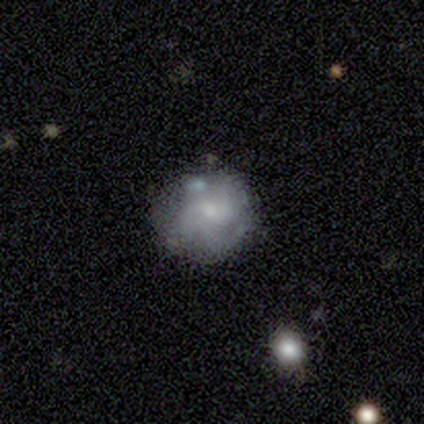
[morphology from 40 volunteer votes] smooth-or-featured: featured or disk: 78% | smooth: 20% | star or artifact: 2%
  disk-edge-on: no: 97% | yes: 3%
    bar: no: 50% | weak: 47% | strong: 3%
    has-spiral-arms: yes: 90% | no: 10%
      spiral-winding: medium: 56% | tight: 37% | loose: 7%
      spiral-arm-count: 3: 44% | can't tell: 30% | 2: 11% | 1: 7% | 4: 7% | more than 4: 0%
    bulge-size: small: 63% | moderate: 30% | none: 7% | dominant: 0% | large: 0%
  merging: none: 51% | minor disturbance: 28% | merger: 13% | major disturbance: 8%